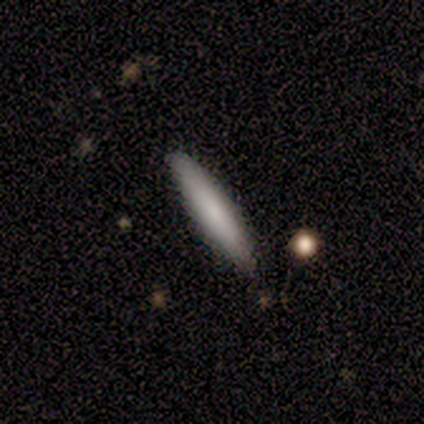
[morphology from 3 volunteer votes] Smooth or featured: smooth — 67% (star or artifact — 33%)
How rounded: in between — 50% (tied with cigar-shaped — 50%)
Merging: none — 100%